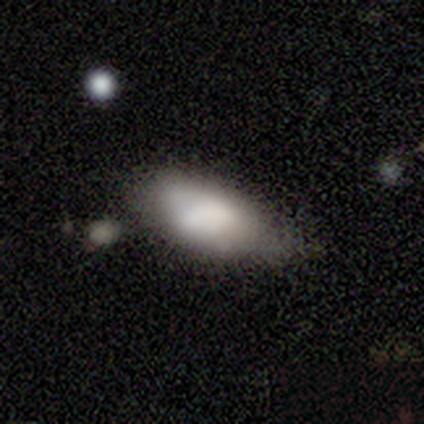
Q: Smooth or featured?
A: smooth (80%); runner-up: featured or disk (20%)
Q: How rounded?
A: in between (100%)
Q: Merging?
A: none (40%); tied with: minor disturbance (40%)